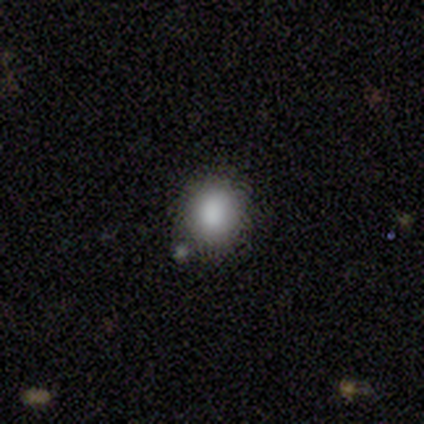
smooth 60%, star or artifact 40%, featured or disk 0%. Down the decision tree: how rounded — round (67%); merging — none (100%).